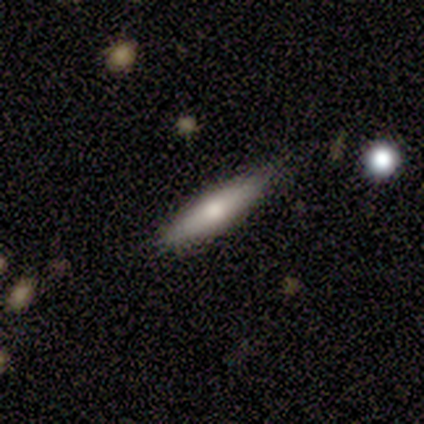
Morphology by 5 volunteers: Smooth or featured? smooth (80%)
How rounded? cigar-shaped (75%)
Merging? none (100%)